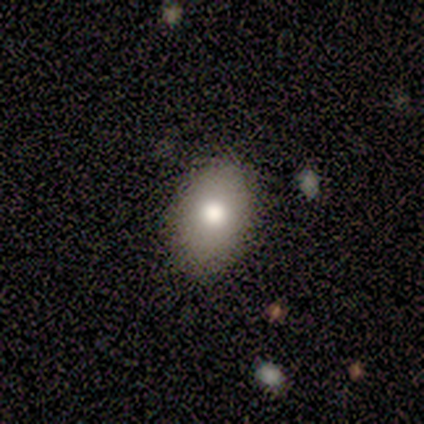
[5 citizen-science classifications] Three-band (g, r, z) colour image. It shows a smooth galaxy with no disk features (80%) that is in between round and cigar-shaped (50%). Merging: none (100%).